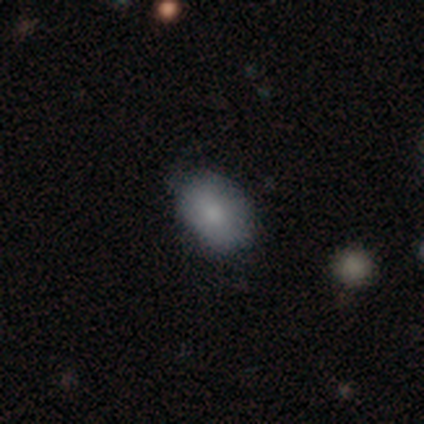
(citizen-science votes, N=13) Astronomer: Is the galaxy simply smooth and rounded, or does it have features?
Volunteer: smooth — 69%.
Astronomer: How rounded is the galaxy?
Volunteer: in between — 89%.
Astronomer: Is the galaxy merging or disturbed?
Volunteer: none — 100%.